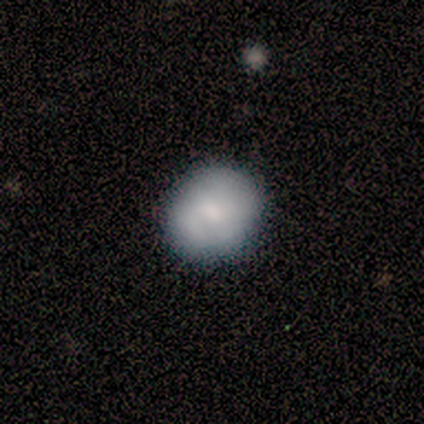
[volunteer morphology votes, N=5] smooth 60%, featured or disk 40%, star or artifact 0%. Down the decision tree: how rounded — round (100%); merging — none (100%).